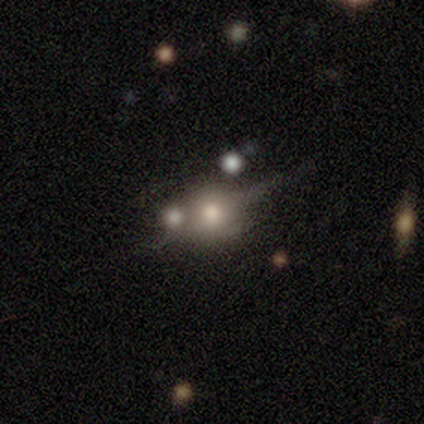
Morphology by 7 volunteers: A featured or disk galaxy (43%) with no bar (67%), no spiral arms (100%) and a moderate central bulge (67%).

Vote fractions:
- Smooth or featured? featured or disk: 43% / smooth: 29% / star or artifact: 29%
- Edge-on disk? no: 100% / yes: 0%
- Bar? no: 67% / weak: 33% / strong: 0%
- Spiral arms? no: 100% / yes: 0%
- Bulge size? moderate: 67% / large: 33% / dominant: 0% / small: 0% / none: 0%
- Merging? none: 40% (tied) / merger: 40% (tied) / minor disturbance: 20% / major disturbance: 0%